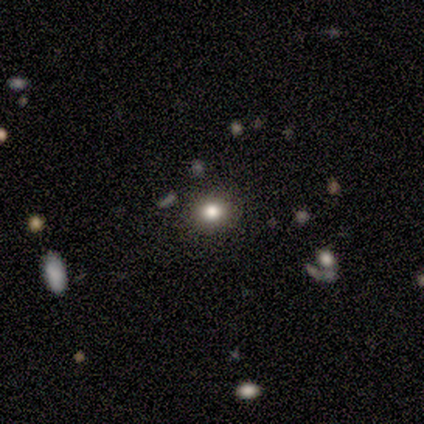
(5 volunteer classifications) Morphology: type=smooth (80%); roundness=round (100%); merging=none (100%).